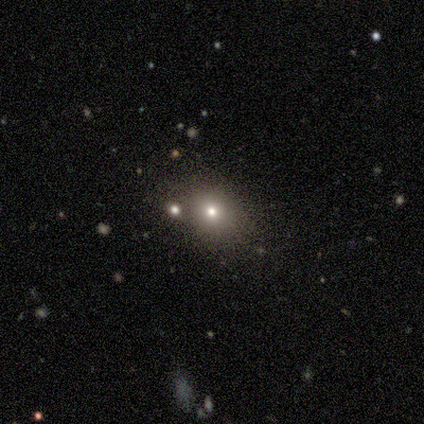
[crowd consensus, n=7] A smooth galaxy with no disk features (71%) that is round (60%).

Vote fractions:
- Smooth or featured? smooth: 71% / featured or disk: 14% / star or artifact: 14%
- How rounded? round: 60% / in between: 40% / cigar-shaped: 0%
- Merging? none: 67% / major disturbance: 17% / merger: 17% / minor disturbance: 0%